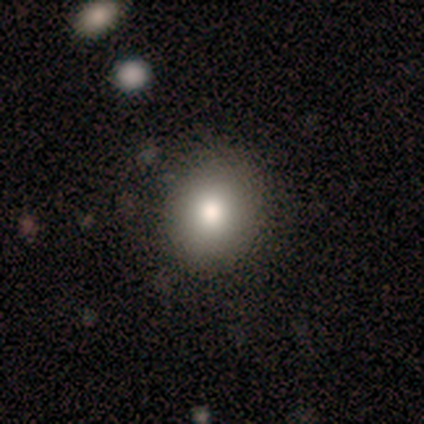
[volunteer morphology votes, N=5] smooth_or_featured: smooth (p=1.00)
how_rounded: round (p=0.60) [alt: in between p=0.40]
merging: none (p=0.60) [alt: minor disturbance p=0.20]